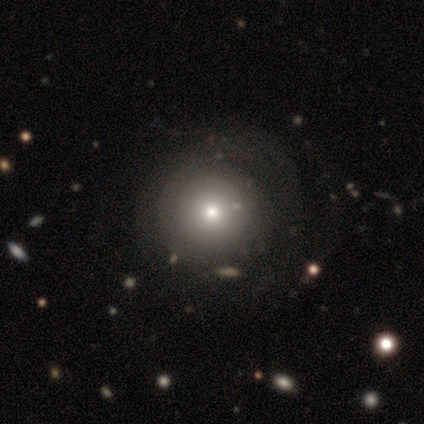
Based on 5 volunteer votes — This is likely a smooth galaxy (60%). How rounded: clearly round (100%). Merging: possibly none (50%).